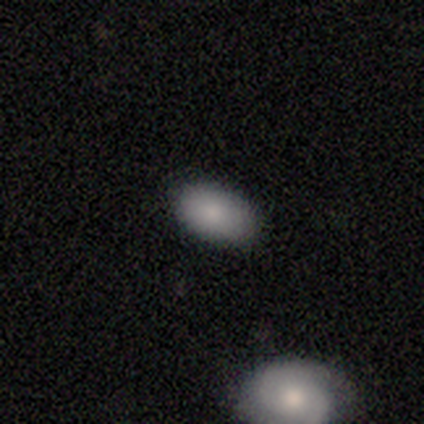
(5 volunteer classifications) Smooth or featured?
  - smooth: 80% *
  - star or artifact: 20%
  - featured or disk: 0%
How rounded?
  - in between: 100% *
  - round: 0%
  - cigar-shaped: 0%
Merging?
  - none: 75% *
  - minor disturbance: 25%
  - major disturbance: 0%
  - merger: 0%